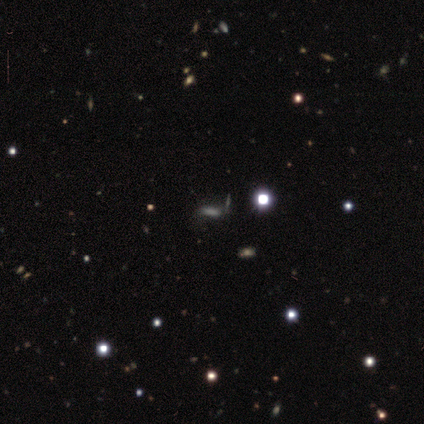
Overall: star or artifact (60%; smooth 40%).